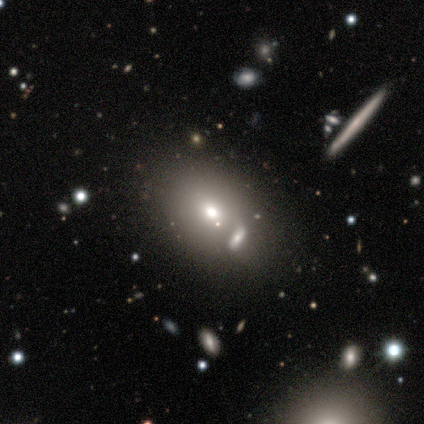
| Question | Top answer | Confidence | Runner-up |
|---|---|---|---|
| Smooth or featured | smooth | 57% | star or artifact (29%) |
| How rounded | in between | 75% | round (25%) |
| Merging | none | 60% | merger (40%) |